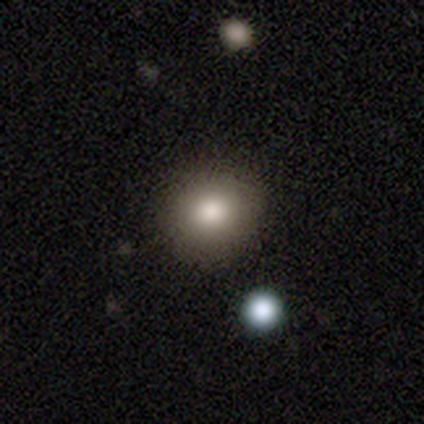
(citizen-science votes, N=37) smooth-or-featured: smooth: 86% | star or artifact: 8% | featured or disk: 5%
  how-rounded: round: 84% | in between: 16% | cigar-shaped: 0%
  merging: none: 91% | major disturbance: 6% | minor disturbance: 3% | merger: 0%